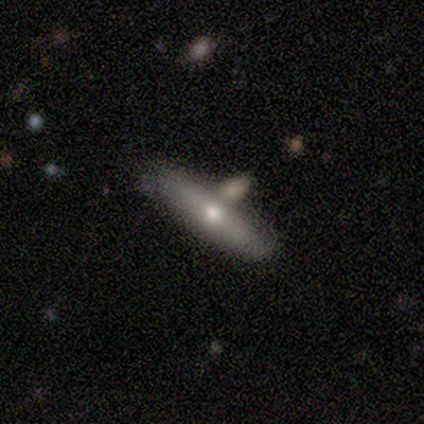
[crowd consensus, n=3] This is likely a smooth galaxy (67%). How rounded: clearly in between (100%). Merging: likely merger (67%).